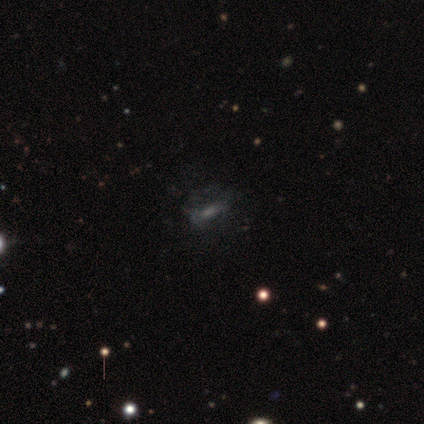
Smooth or featured? smooth (43%, tied with featured or disk)
How rounded? in between (67%)
Merging? minor disturbance (42%)